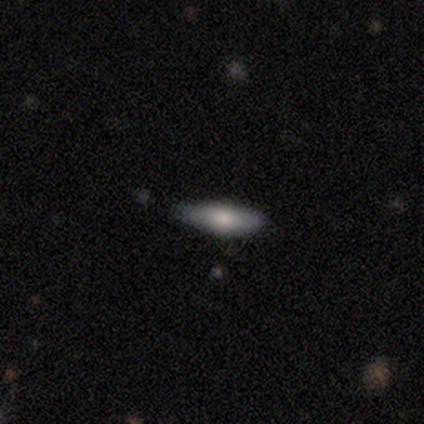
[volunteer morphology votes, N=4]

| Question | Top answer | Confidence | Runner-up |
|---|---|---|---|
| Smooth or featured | featured or disk | 100% | — |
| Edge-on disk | yes | 50% | tied: no (50%) |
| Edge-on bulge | rounded | 100% | — |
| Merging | none | 100% | — |